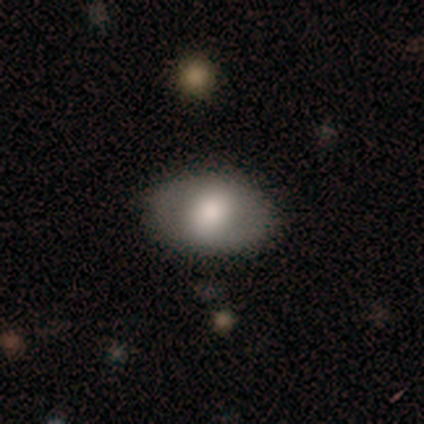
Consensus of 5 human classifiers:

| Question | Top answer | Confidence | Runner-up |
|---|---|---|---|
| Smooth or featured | smooth | 60% | featured or disk (20%) |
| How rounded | in between | 100% | — |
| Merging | none | 100% | — |